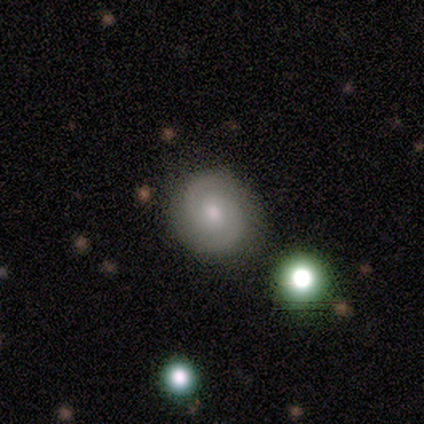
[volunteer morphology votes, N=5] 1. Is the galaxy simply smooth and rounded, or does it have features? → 60% smooth, 40% featured or disk, 0% star or artifact.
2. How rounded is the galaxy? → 100% round, 0% in between, 0% cigar-shaped.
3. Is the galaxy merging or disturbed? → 100% none, 0% minor disturbance, 0% major disturbance, 0% merger.